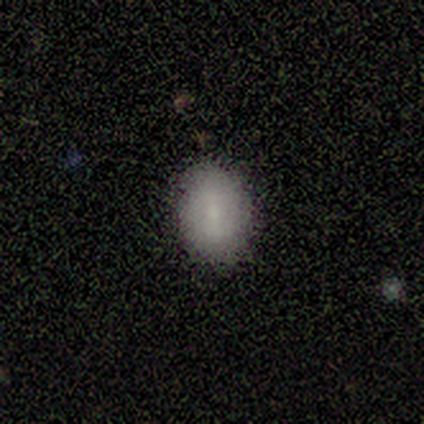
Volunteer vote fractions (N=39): Overall: smooth (64%). How rounded: in between (84%). Merging: none (85%).